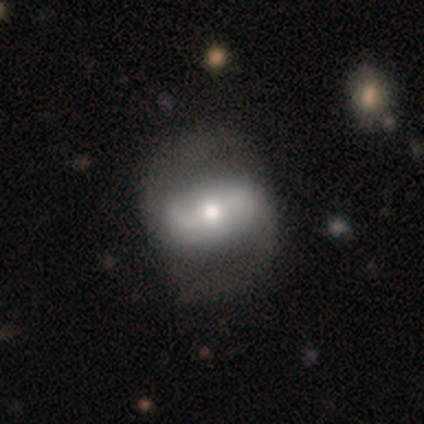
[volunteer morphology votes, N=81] This appears to be a featured or disk galaxy (70%) with a strong bar (47%), 2 (98%) loose (59%) spiral arms (84%) and a moderate central bulge (65%). Merging: none (34%).